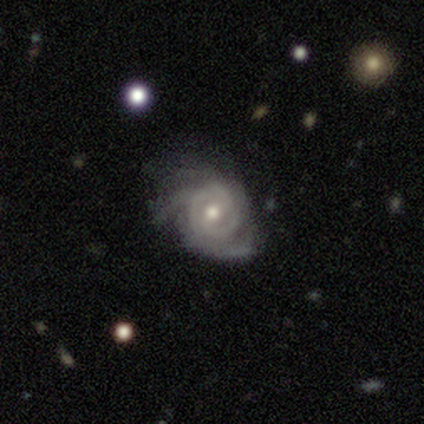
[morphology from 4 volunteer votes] Smooth or featured?
  - featured or disk: 75% *
  - smooth: 25%
  - star or artifact: 0%
Edge-on disk?
  - no: 100% *
  - yes: 0%
Bar?
  - no: 67% *
  - strong: 33%
  - weak: 0%
Spiral arms?
  - yes: 100% *
  - no: 0%
Spiral winding?
  - medium: 100% *
  - tight: 0%
  - loose: 0%
Spiral arm count?
  - 2: 33% * (tied)
  - 3: 33% * (tied)
  - can't tell: 33% * (tied)
  - 1: 0%
  - 4: 0%
  - more than 4: 0%
Bulge size?
  - moderate: 67% *
  - small: 33%
  - dominant: 0%
  - large: 0%
  - none: 0%
Merging?
  - none: 50% * (tied)
  - major disturbance: 50% * (tied)
  - minor disturbance: 0%
  - merger: 0%